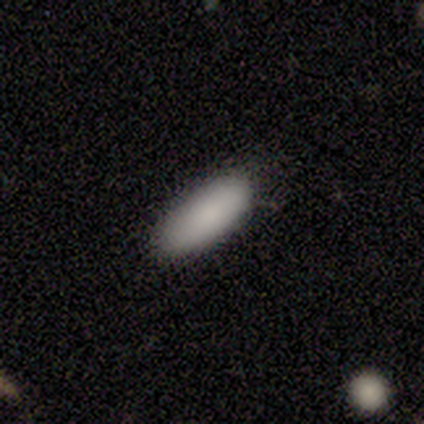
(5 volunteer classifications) Volunteers were most divided on "merging": none: 80%, minor disturbance: 20%, major disturbance: 0%, merger: 0%. More confident: smooth or featured — smooth (100%); how rounded — in between (100%).